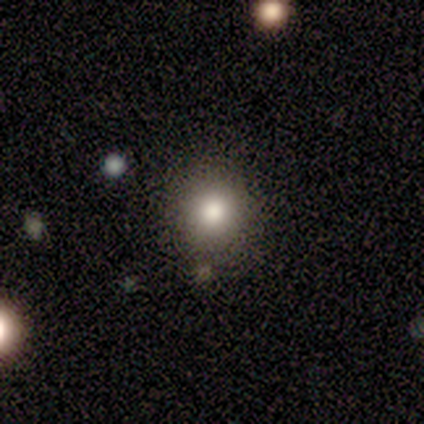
smooth_or_featured: smooth (p=0.84) [alt: star or artifact p=0.11]
how_rounded: round (p=0.89) [alt: in between p=0.09]
merging: none (p=0.80) [alt: minor disturbance p=0.19]